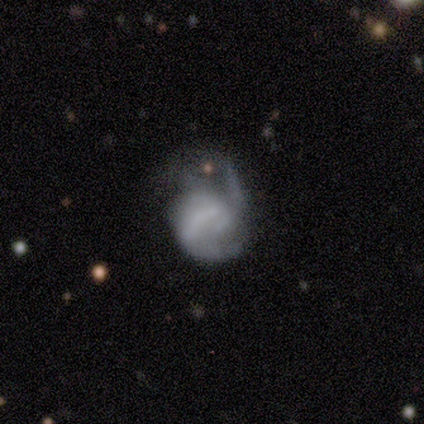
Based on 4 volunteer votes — smooth-or-featured: smooth: 50% (tied) | featured or disk: 50% (tied) | star or artifact: 0%
  how-rounded: in between: 100% | round: 0% | cigar-shaped: 0%
  merging: none: 50% | minor disturbance: 25% | major disturbance: 25% | merger: 0%